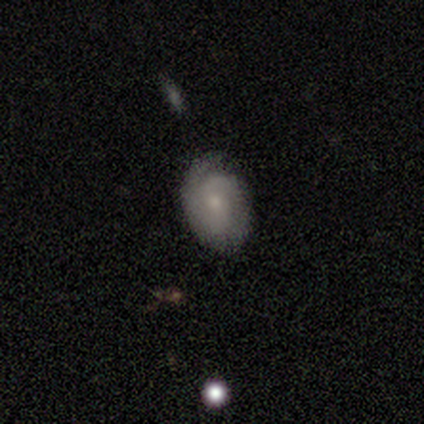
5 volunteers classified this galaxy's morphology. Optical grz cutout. It shows a smooth galaxy with no disk features (40%, tied with featured or disk) that is round (50%, tied with in between). Merging: none (75%).